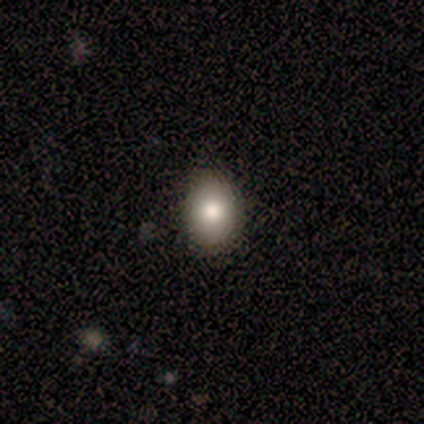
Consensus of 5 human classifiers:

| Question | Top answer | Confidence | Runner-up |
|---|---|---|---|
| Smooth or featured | smooth | 80% | featured or disk (20%) |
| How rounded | round | 50% | tied: in between (50%) |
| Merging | none | 80% | minor disturbance (20%) |